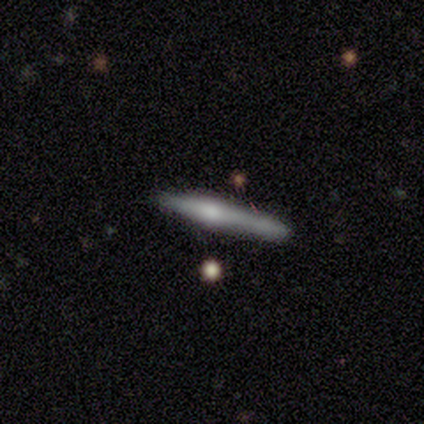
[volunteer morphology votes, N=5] This is likely a featured or disk galaxy (60%). It is clearly viewed edge-on (100%). Edge-on bulge: likely rounded (67%). Merging: likely none (60%).